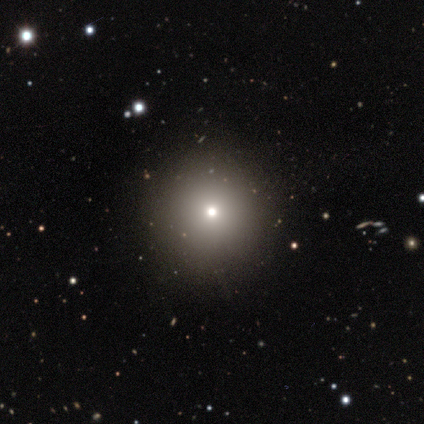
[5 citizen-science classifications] smooth 60%, featured or disk 20%, star or artifact 20%. Down the decision tree: how rounded — round (100%); merging — none (100%).